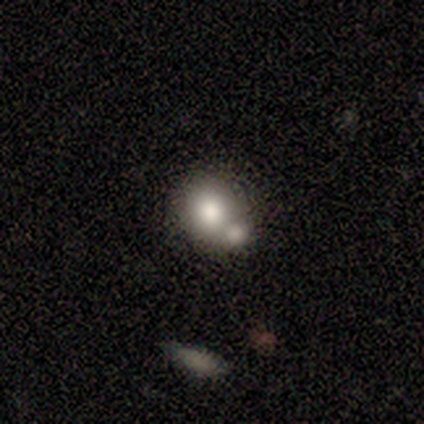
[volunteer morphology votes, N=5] smooth 80%, star or artifact 20%, featured or disk 0%. Down the decision tree: how rounded — round (50%, tied with in between); merging — none (75%).